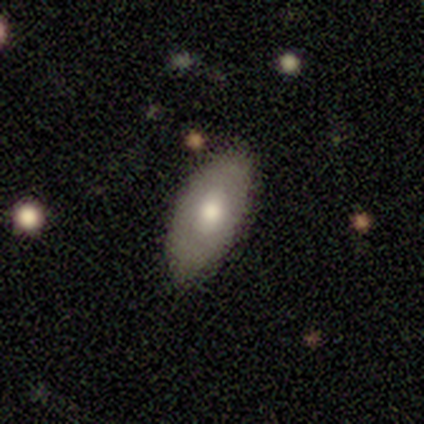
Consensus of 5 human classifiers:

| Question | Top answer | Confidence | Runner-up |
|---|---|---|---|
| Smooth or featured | featured or disk | 60% | smooth (40%) |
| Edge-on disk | no | 67% | yes (33%) |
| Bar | no | 100% | — |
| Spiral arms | yes | 50% | tied: no (50%) |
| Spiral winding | tight | 100% | — |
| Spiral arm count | can't tell | 100% | — |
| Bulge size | moderate | 100% | — |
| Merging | none | 80% | minor disturbance (20%) |